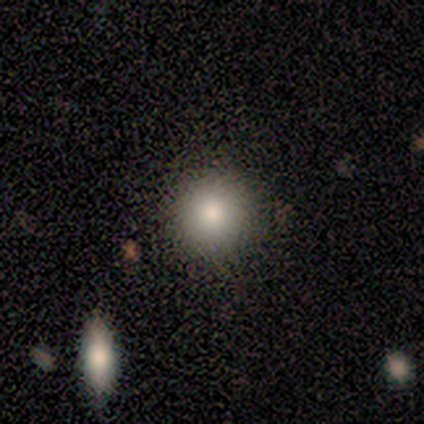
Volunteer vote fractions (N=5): smooth 80%, star or artifact 20%, featured or disk 0%. Down the decision tree: how rounded — round (100%); merging — none (75%).